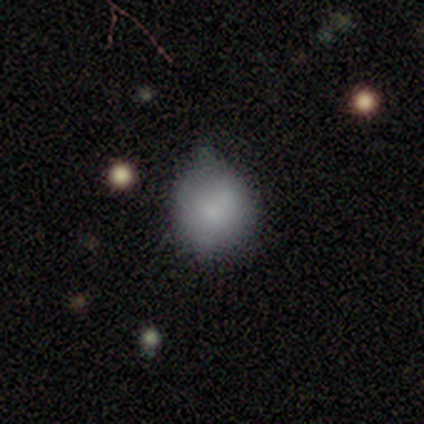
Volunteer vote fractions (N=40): Morphology: type=smooth (82%); roundness=round (76%); merging=minor disturbance (51%).